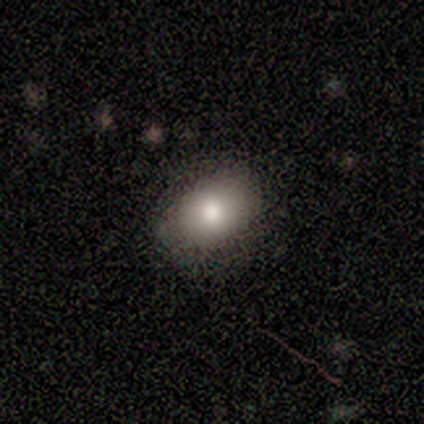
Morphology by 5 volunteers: smooth-or-featured: smooth: 80% | star or artifact: 20% | featured or disk: 0%
  how-rounded: round: 50% (tied) | in between: 50% (tied) | cigar-shaped: 0%
  merging: none: 75% | minor disturbance: 25% | major disturbance: 0% | merger: 0%